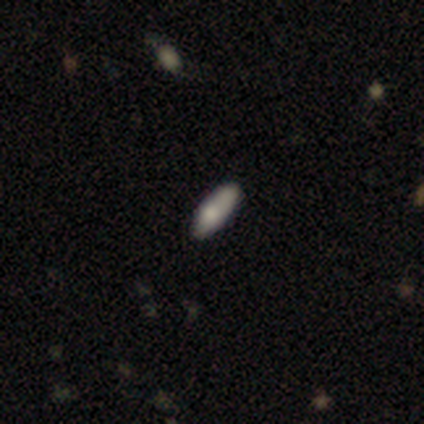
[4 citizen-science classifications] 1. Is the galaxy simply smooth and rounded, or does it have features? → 100% smooth, 0% featured or disk, 0% star or artifact.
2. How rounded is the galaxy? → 50% in between (tied), 50% cigar-shaped (tied), 0% round.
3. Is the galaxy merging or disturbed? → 100% none, 0% minor disturbance, 0% major disturbance, 0% merger.